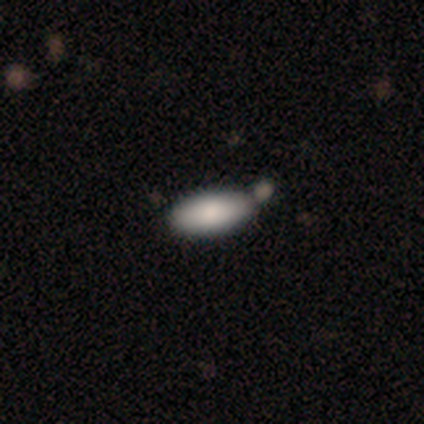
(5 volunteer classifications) Overall: smooth (100%). How rounded: in between (100%). Merging: merger (60%; none 40%).